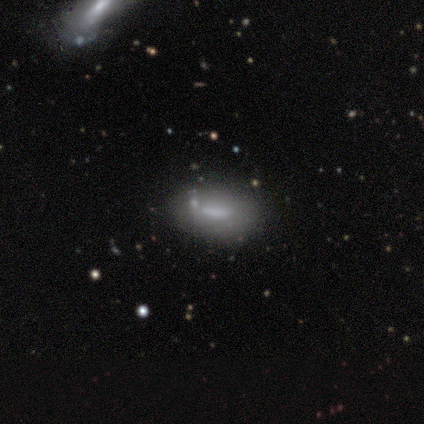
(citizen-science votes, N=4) Volunteers were most divided on "merging" (2-way tie): none: 50%, minor disturbance: 50%, major disturbance: 0%, merger: 0%. More confident: how rounded — in between (100%); smooth or featured — smooth (75%).